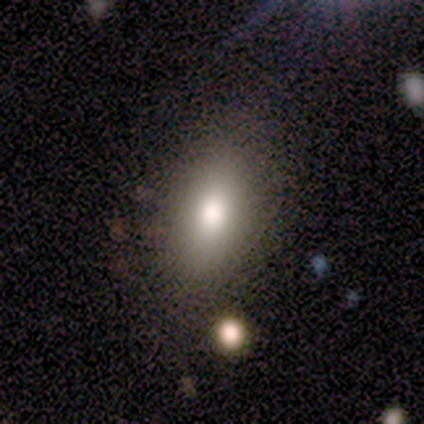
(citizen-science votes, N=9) This is likely a smooth galaxy (67%). How rounded: clearly in between (83%). Merging: likely none (71%).